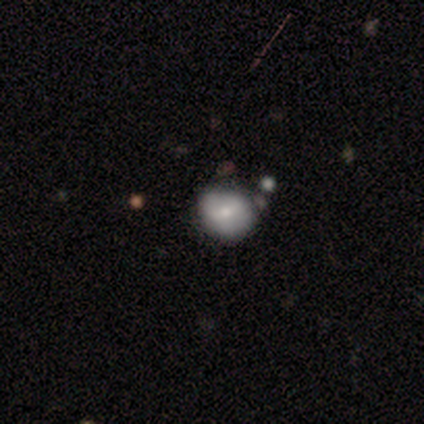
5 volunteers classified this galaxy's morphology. Overall: smooth (60%; featured or disk 40%). How rounded: round (67%; in between 33%). Merging: minor disturbance (40%, tied with merger).